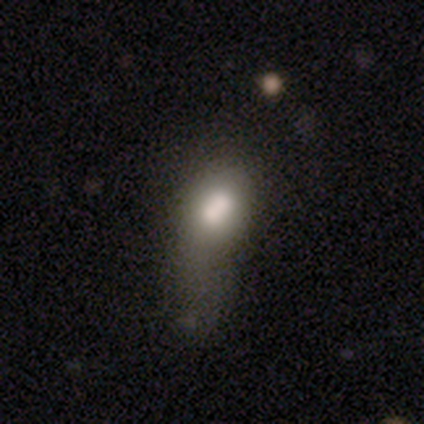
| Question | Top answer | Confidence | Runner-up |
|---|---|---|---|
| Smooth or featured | smooth | 76% | featured or disk (17%) |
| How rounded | in between | 74% | round (13%) |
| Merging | major disturbance | 34% | merger (31%) |